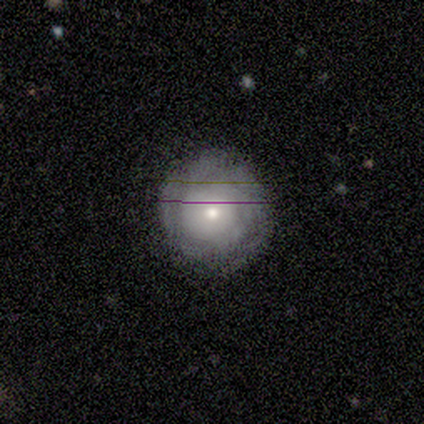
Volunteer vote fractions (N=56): Smooth or featured: featured or disk — 62% (smooth — 30%)
Edge-on disk: no — 100%
Bar: no — 91% (weak — 9%)
Spiral arms: yes — 66% (no — 34%)
Spiral winding: tight — 87% (loose — 9%)
Spiral arm count: can't tell — 61% (2 — 22%)
Bulge size: moderate — 60% (small — 34%)
Merging: none — 73% (minor disturbance — 21%)